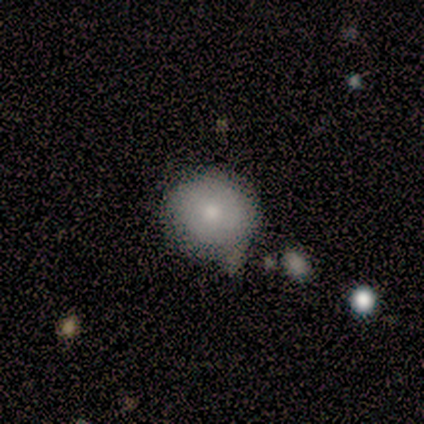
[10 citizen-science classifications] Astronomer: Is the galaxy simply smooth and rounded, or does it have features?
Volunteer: smooth — 70%.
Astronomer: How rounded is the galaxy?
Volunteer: round — 100%.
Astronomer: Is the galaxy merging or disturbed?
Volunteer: none — 70%.